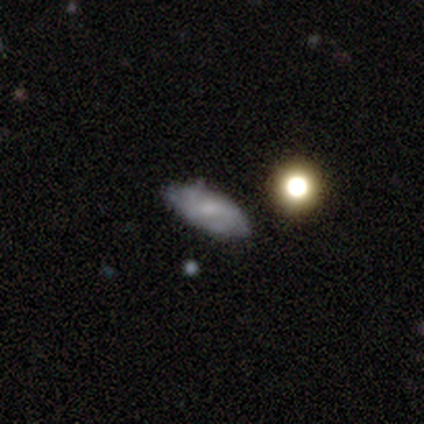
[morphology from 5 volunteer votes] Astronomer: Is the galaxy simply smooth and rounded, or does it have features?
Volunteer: featured or disk — 60%.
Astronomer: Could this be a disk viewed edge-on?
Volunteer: no — 67%.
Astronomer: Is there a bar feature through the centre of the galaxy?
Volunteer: weak — 50%, tied with no at 50%.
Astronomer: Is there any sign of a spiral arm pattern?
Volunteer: yes — 100%.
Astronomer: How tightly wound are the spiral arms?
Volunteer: medium — 100%.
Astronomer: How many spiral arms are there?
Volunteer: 2 — 50%, tied with can't tell at 50%.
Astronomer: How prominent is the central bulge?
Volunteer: moderate — 50%, tied with none at 50%.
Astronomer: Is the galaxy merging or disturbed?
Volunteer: none — 50%, tied with minor disturbance at 50%.